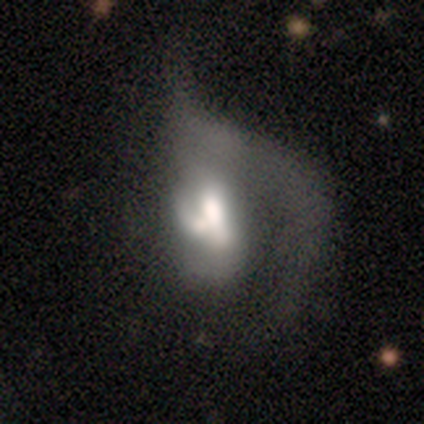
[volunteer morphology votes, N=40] smooth-or-featured: featured or disk: 78% | smooth: 20% | star or artifact: 2%
  disk-edge-on: no: 100% | yes: 0%
    bar: no: 68% | weak: 26% | strong: 6%
    has-spiral-arms: yes: 52% | no: 48%
      spiral-winding: loose: 69% | medium: 19% | tight: 12%
      spiral-arm-count: 1: 81% | can't tell: 19% | 2: 0% | 3: 0% | 4: 0% | more than 4: 0%
    bulge-size: moderate: 42% | large: 39% | none: 10% | dominant: 6% | small: 3%
  merging: major disturbance: 67% | merger: 21% | none: 8% | minor disturbance: 5%